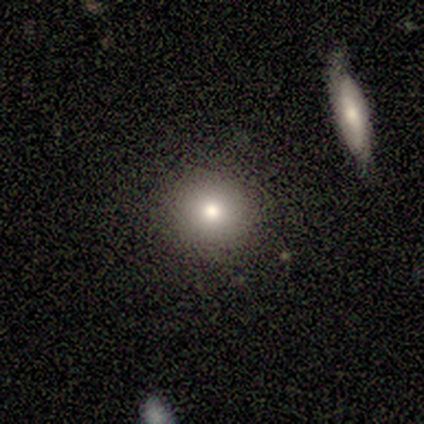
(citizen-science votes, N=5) This is clearly a smooth galaxy (80%). How rounded: likely round (75%). Merging: clearly none (100%).